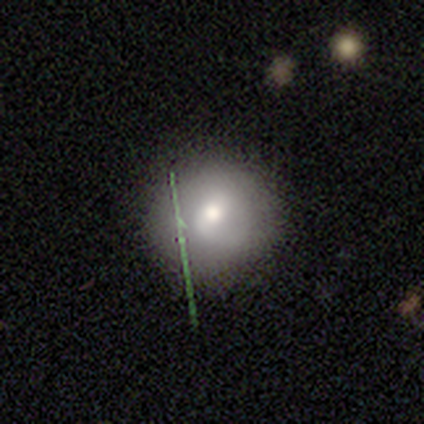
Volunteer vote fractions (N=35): smooth 54%, featured or disk 31%, star or artifact 14%. Down the decision tree: how rounded — round (89%); merging — none (73%).